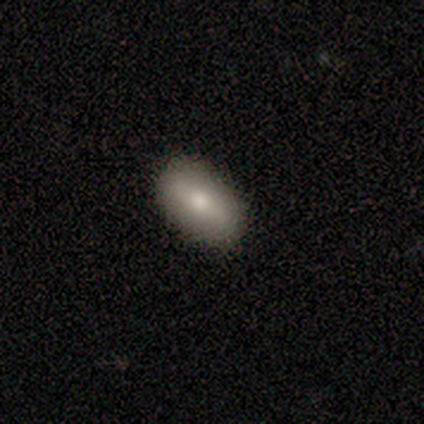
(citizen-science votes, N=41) Q: Smooth or featured?
A: smooth (73%); runner-up: featured or disk (17%)
Q: How rounded?
A: in between (83%); runner-up: cigar-shaped (10%)
Q: Merging?
A: none (86%); runner-up: minor disturbance (14%)